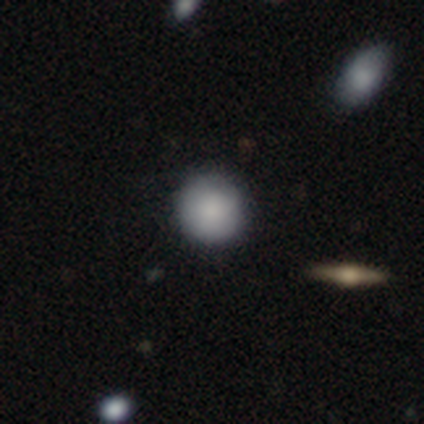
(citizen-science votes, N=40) This appears to be a smooth galaxy with no disk features (92%) that is round (100%). Merging: none (55%).